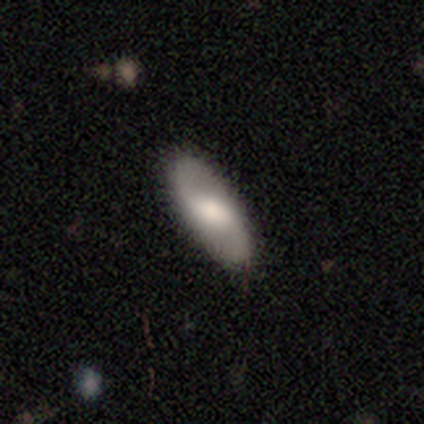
Overall: featured or disk (62%; smooth 26%). Edge-on disk: no (88%). Bar: weak (62%; no 24%). Spiral arms: yes (95%). Spiral arm count: 2 (95%). Spiral winding: loose (50%; medium 35%). Bulge size: large (38%; moderate 29%). Merging: none (88%).